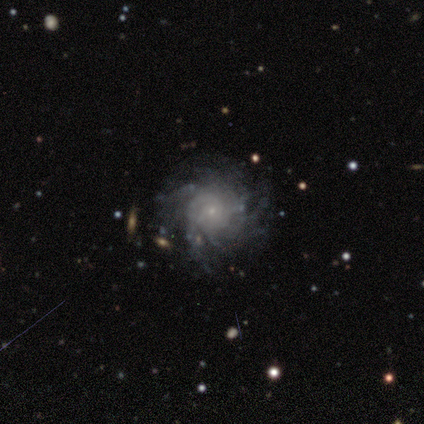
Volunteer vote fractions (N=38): A featured or disk galaxy (89%) with no bar (81%), more than 4 (55%) tight (65%) spiral arms (97%) and a small central bulge (84%).

Vote fractions:
- Smooth or featured? featured or disk: 89% / star or artifact: 8% / smooth: 3%
- Edge-on disk? no: 94% / yes: 6%
- Bar? no: 81% / weak: 16% / strong: 3%
- Spiral arms? yes: 97% / no: 3%
- Spiral winding? tight: 65% / medium: 19% / loose: 16%
- Spiral arm count? more than 4: 55% / can't tell: 26% / 2: 6% / 4: 6% / 1: 3% / 3: 3%
- Bulge size? small: 84% / moderate: 9% / none: 6% / dominant: 0% / large: 0%
- Merging? none: 77% / minor disturbance: 17% / merger: 6% / major disturbance: 0%